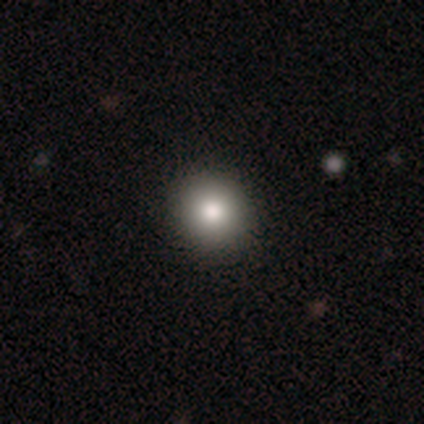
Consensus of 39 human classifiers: Morphology: type=smooth (90%); roundness=round (94%); merging=none (92%).